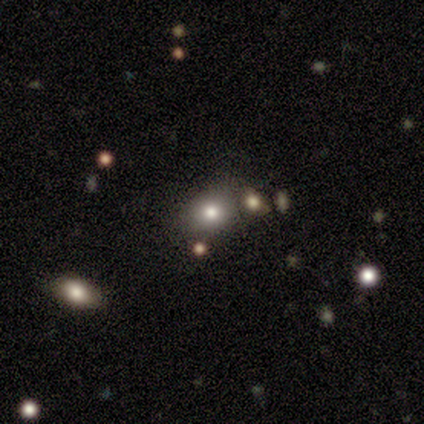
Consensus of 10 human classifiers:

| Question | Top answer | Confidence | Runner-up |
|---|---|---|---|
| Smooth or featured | smooth | 60% | star or artifact (30%) |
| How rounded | in between | 67% | round (33%) |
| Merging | none | 86% | minor disturbance (14%) |